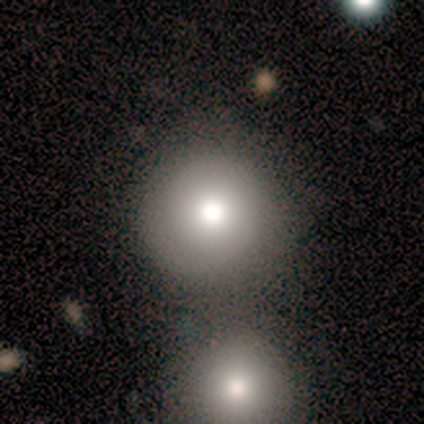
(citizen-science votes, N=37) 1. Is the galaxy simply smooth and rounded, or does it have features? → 73% smooth, 19% featured or disk, 8% star or artifact.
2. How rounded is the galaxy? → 96% round, 4% in between, 0% cigar-shaped.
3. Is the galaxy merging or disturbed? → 41% merger, 32% none, 3% minor disturbance, 0% major disturbance.